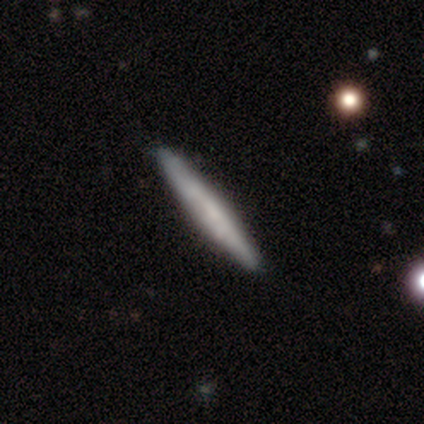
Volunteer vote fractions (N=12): smooth_or_featured: smooth (p=0.58) [alt: featured or disk p=0.33]
how_rounded: cigar-shaped (p=0.86) [alt: in between p=0.14]
merging: none (p=0.91) [alt: minor disturbance p=0.09]